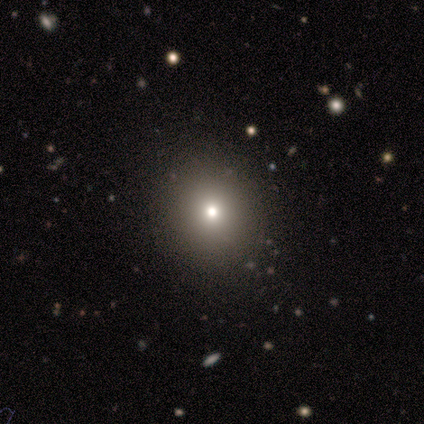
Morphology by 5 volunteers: smooth 100%, featured or disk 0%, star or artifact 0%. Down the decision tree: how rounded — round (80%); merging — none (60%).